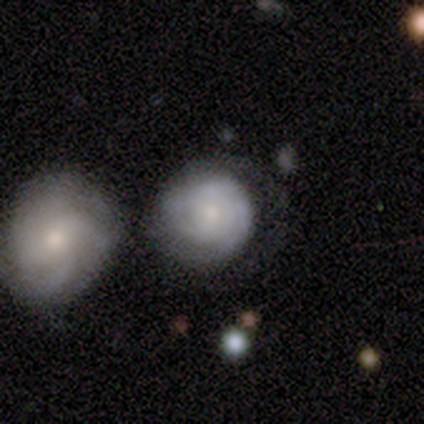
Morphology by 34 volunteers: smooth-or-featured: featured or disk: 71% | smooth: 29% | star or artifact: 0%
  disk-edge-on: no: 100% | yes: 0%
    bar: no: 96% | weak: 4% | strong: 0%
    has-spiral-arms: yes: 88% | no: 12%
      spiral-winding: tight: 76% | medium: 19% | loose: 5%
      spiral-arm-count: can't tell: 57% | 2: 24% | 3: 14% | more than 4: 5% | 1: 0% | 4: 0%
    bulge-size: small: 50% | moderate: 46% | none: 4% | dominant: 0% | large: 0%
  merging: merger: 53% | none: 0% | minor disturbance: 0% | major disturbance: 0%